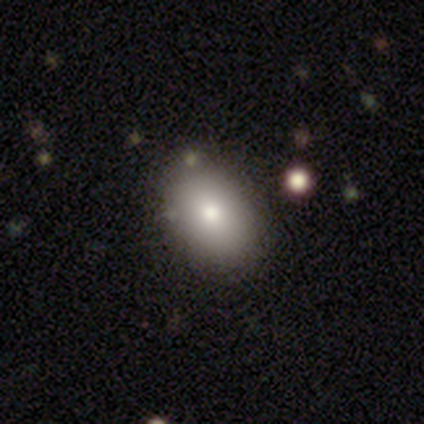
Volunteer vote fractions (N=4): Morphology: type=smooth (50%, tied with featured or disk); roundness=in between (100%); merging=none (75%).